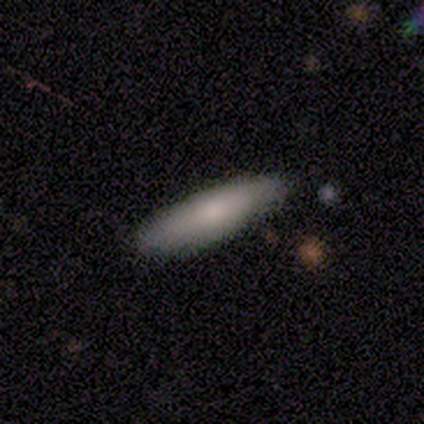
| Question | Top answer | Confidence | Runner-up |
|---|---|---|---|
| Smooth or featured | smooth | 80% | featured or disk (20%) |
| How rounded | cigar-shaped | 75% | in between (25%) |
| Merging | none | 60% | minor disturbance (40%) |